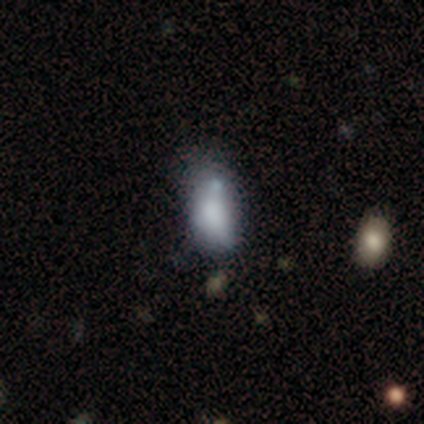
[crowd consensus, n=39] Overall: smooth (64%). How rounded: in between (84%). Merging: minor disturbance (41%; none 24%).